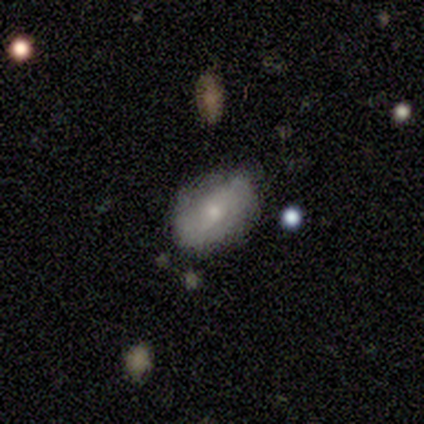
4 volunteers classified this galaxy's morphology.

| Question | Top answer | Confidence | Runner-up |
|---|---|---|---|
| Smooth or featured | smooth | 50% | tied: featured or disk (50%) |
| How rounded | in between | 100% | — |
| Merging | none | 75% | minor disturbance (25%) |